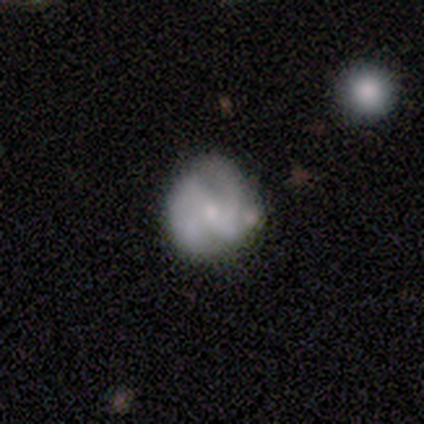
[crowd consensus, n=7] smooth_or_featured: featured or disk (p=0.71) [alt: smooth p=0.14]
disk_edge_on: no (p=1.00)
bar: strong (p=0.40) [tied with: no p=0.40]
has_spiral_arms: yes (p=0.80) [alt: no p=0.20]
spiral_winding: medium (p=0.50) [alt: tight p=0.25]
spiral_arm_count: 2 (p=0.75) [alt: can't tell p=0.25]
bulge_size: small (p=0.60) [alt: moderate p=0.40]
merging: none (p=0.67) [alt: minor disturbance p=0.33]